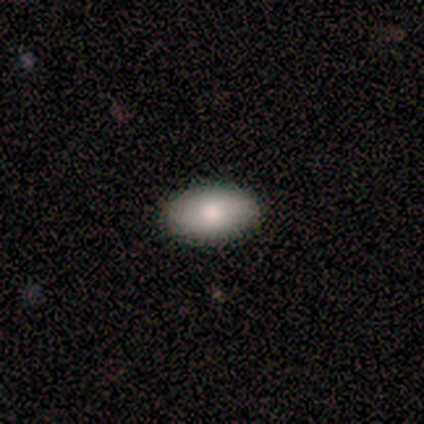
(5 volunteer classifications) Volunteers were most divided on "how rounded": in between: 80%, round: 20%, cigar-shaped: 0%. More confident: smooth or featured — smooth (100%); merging — none (100%).